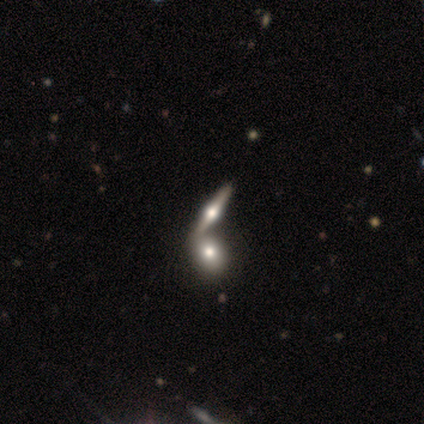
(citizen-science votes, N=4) featured or disk 100%, smooth 0%, star or artifact 0%. Down the decision tree: edge-on disk — yes (75%); edge-on bulge — rounded (100%); merging — none (50%).